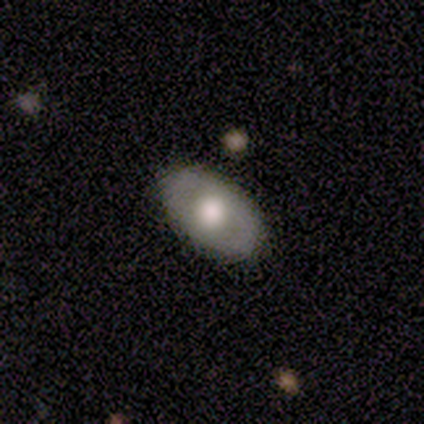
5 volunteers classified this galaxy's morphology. This is likely a featured or disk galaxy (60%). It is likely viewed edge-on (67%). Edge-on bulge: clearly rounded (100%). Merging: clearly none (100%).